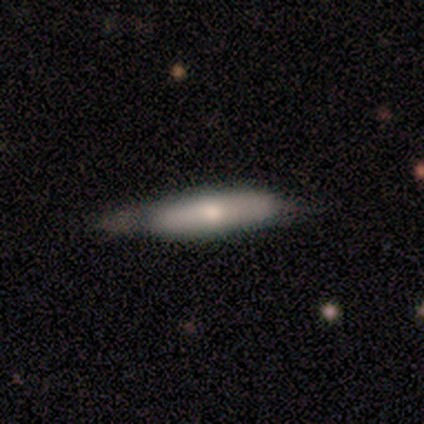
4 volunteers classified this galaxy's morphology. Volunteers were most divided on "merging" (2-way tie): none: 50%, minor disturbance: 50%, major disturbance: 0%, merger: 0%. More confident: edge-on disk — yes (100%); smooth or featured — featured or disk (75%); edge-on bulge — none (67%).